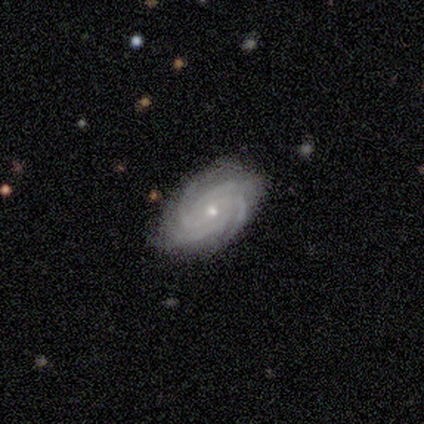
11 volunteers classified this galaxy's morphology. type=featured or disk (100%); edge-on=no (100%); bar=no (64%); spiral arms=yes (100%); winding=tight (73%); arm count=4 (64%); bulge=small (82%); merging=none (82%).